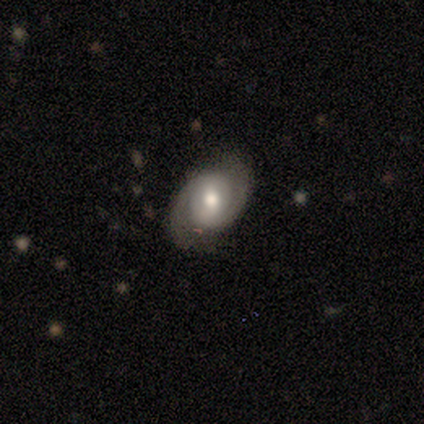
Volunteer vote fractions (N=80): Smooth or featured?
  - featured or disk: 86% *
  - smooth: 11%
  - star or artifact: 2%
Edge-on disk?
  - no: 99% *
  - yes: 1%
Bar?
  - no: 46% *
  - weak: 41%
  - strong: 13%
Spiral arms?
  - yes: 96% *
  - no: 4%
Spiral winding?
  - tight: 45% *
  - medium: 35%
  - loose: 20%
Spiral arm count?
  - 2: 92% *
  - 1: 3%
  - can't tell: 3%
  - 4: 2%
  - 3: 0%
  - more than 4: 0%
Bulge size?
  - moderate: 75% *
  - large: 18%
  - small: 6%
  - dominant: 1%
  - none: 0%
Merging?
  - none: 83% *
  - minor disturbance: 13%
  - major disturbance: 3%
  - merger: 1%